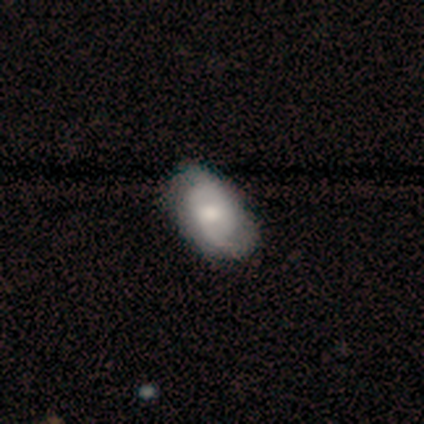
Smooth or featured? featured or disk (46%)
Edge-on disk? no (100%)
Bar? no (83%)
Spiral arms? yes (94%)
Spiral winding? medium (65%)
Spiral arm count? 2 (65%)
Bulge size? moderate (94%)
Merging? none (66%)